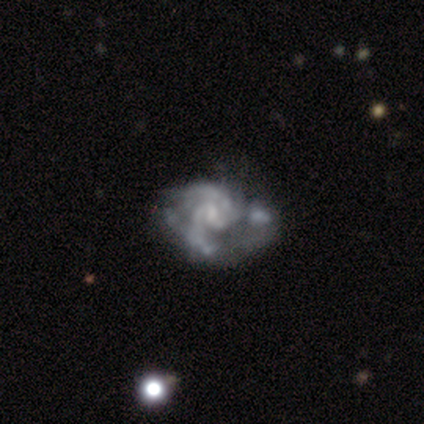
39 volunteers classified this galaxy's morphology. smooth_or_featured: featured or disk (p=0.90) [alt: smooth p=0.05]
disk_edge_on: no (p=0.97) [alt: yes p=0.03]
bar: no (p=0.62) [alt: weak p=0.35]
has_spiral_arms: yes (p=0.94) [alt: no p=0.06]
spiral_winding: medium (p=0.59) [alt: tight p=0.25]
spiral_arm_count: 2 (p=0.72) [alt: can't tell p=0.19]
bulge_size: small (p=0.53) [alt: none p=0.24]
merging: none (p=0.27) [tied with: merger p=0.27]